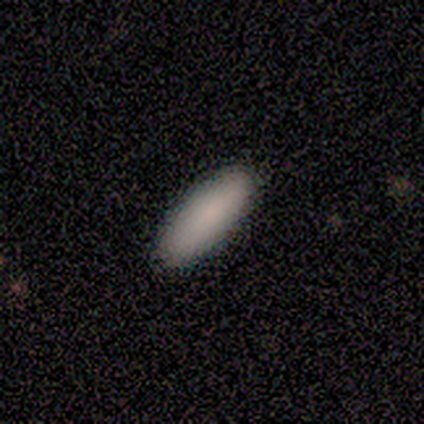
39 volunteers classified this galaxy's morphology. Smooth or featured? 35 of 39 (90%) said smooth. How rounded? 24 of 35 (69%) said in between. Merging? 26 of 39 (67%) said none.